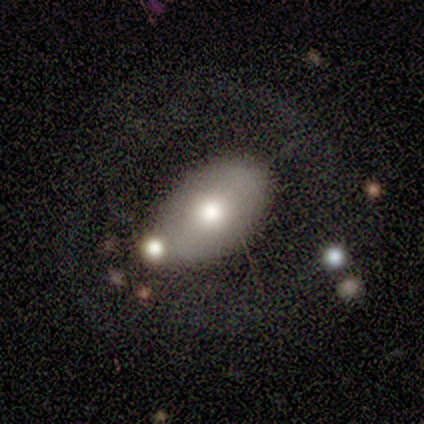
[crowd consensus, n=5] A smooth galaxy with no disk features (60%) that is in between round and cigar-shaped (100%). Merging: major disturbance (40%).